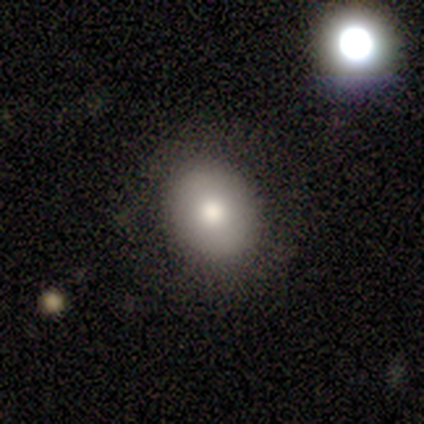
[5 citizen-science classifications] Q: Smooth or featured?
A: smooth (100%)
Q: How rounded?
A: round (60%); runner-up: in between (40%)
Q: Merging?
A: none (100%)